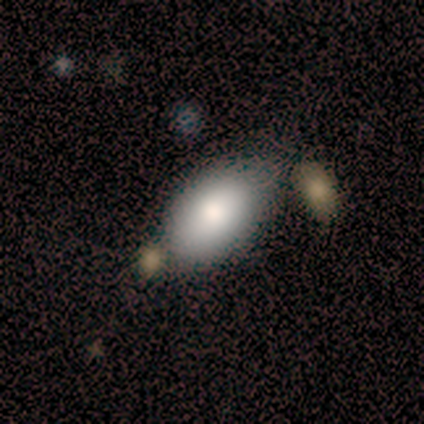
This is clearly a smooth galaxy (100%). How rounded: clearly in between (80%). Merging: likely none (60%).